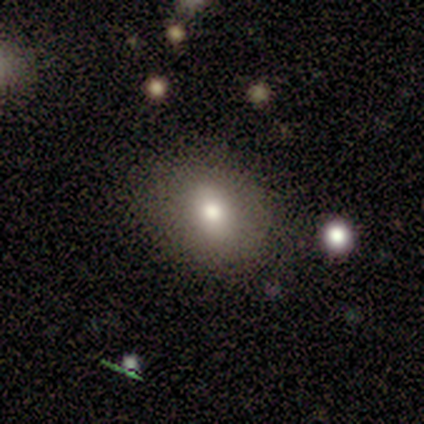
A smooth galaxy with no disk features (80%) that is round (75%).

Vote fractions:
- Smooth or featured? smooth: 80% / star or artifact: 20% / featured or disk: 0%
- How rounded? round: 75% / in between: 25% / cigar-shaped: 0%
- Merging? none: 100% / minor disturbance: 0% / major disturbance: 0% / merger: 0%